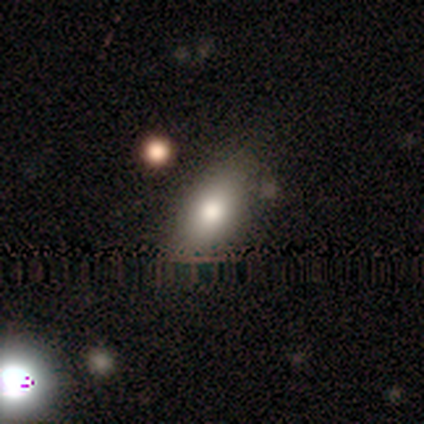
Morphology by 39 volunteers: A smooth galaxy with no disk features (77%) that is in between round and cigar-shaped (90%). Merging: none (63%).